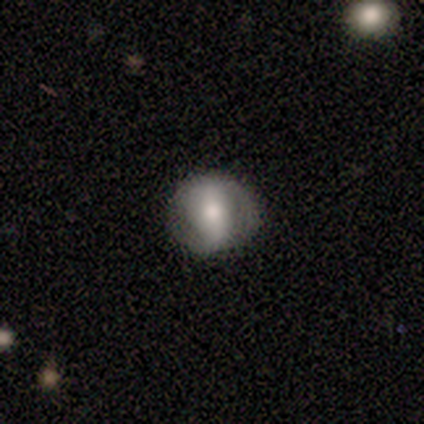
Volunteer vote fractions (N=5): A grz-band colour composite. It shows a featured or disk galaxy (60%) with a weak bar (67%), no spiral arms (67%) and a large central bulge (33%, tied with moderate and none). Merging: none (100%).